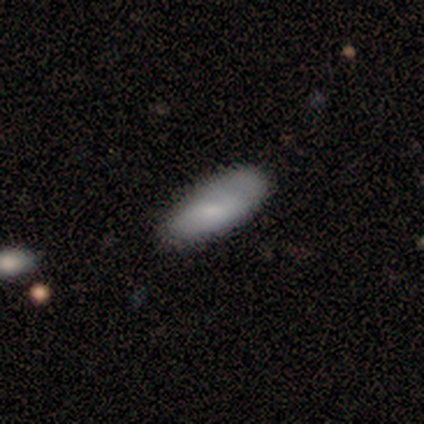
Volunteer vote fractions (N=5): Volunteers were most divided on "how rounded" (2-way tie): in between: 50%, cigar-shaped: 50%, round: 0%. More confident: smooth or featured — smooth (80%); merging — none (60%).